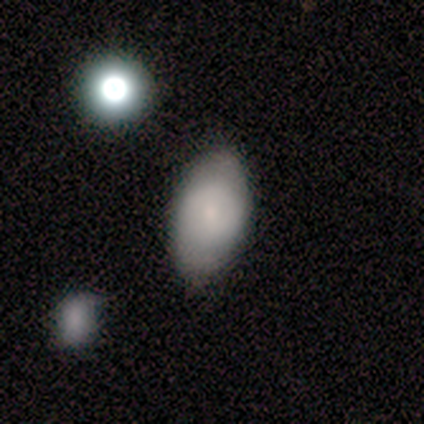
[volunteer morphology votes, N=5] Smooth or featured? 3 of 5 (60%) said smooth. How rounded? 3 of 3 (100%) said in between. Merging? 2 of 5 (40%, tied with minor disturbance) said none.